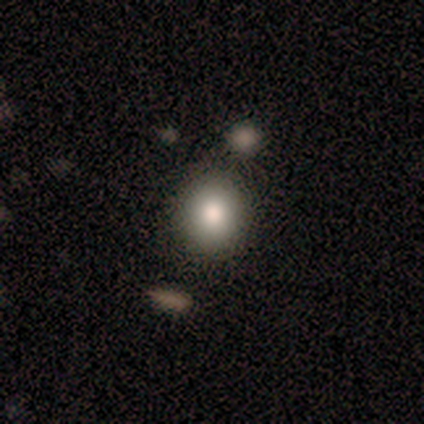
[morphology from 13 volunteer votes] A smooth galaxy with no disk features (62%) that is round (75%). Merging: none (90%).